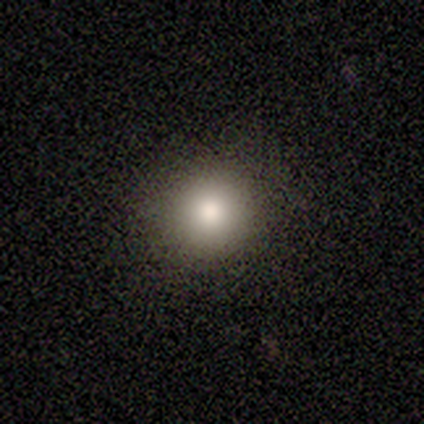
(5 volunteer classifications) Smooth or featured? smooth (100%)
How rounded? round (100%)
Merging? none (100%)